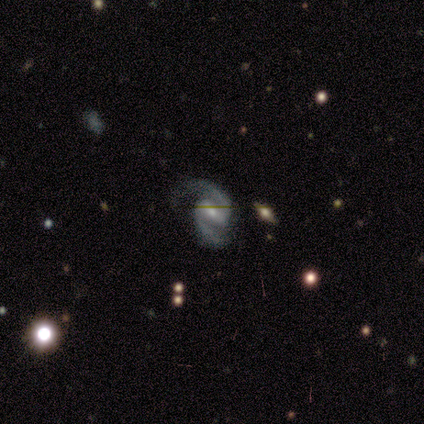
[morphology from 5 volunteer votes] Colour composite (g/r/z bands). It shows a featured or disk galaxy (100%) with a strong bar (80%), 2 (100%) medium (60%) spiral arms (100%) and a small central bulge (60%). Merging: none (40%, tied with minor disturbance).